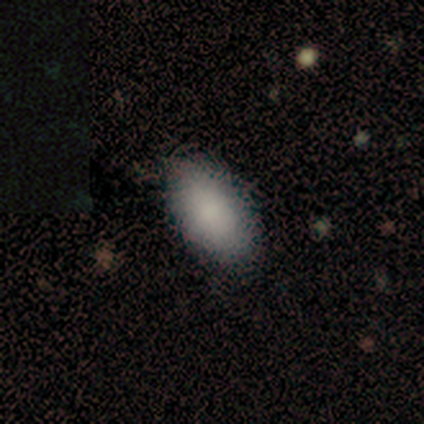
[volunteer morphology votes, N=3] type=smooth (100%); roundness=in between (100%); merging=none (67%).